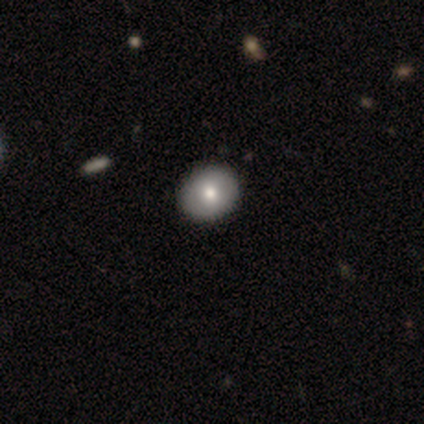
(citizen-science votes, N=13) smooth-or-featured: smooth: 62% | featured or disk: 23% | star or artifact: 15%
  how-rounded: round: 62% | in between: 38% | cigar-shaped: 0%
  merging: none: 91% | major disturbance: 9% | minor disturbance: 0% | merger: 0%